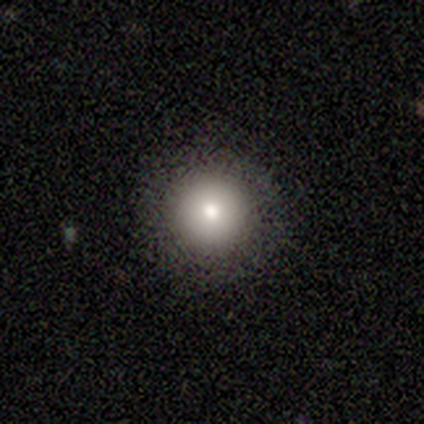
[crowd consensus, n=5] A smooth galaxy with no disk features (80%) that is round (100%). Merging: none (80%).